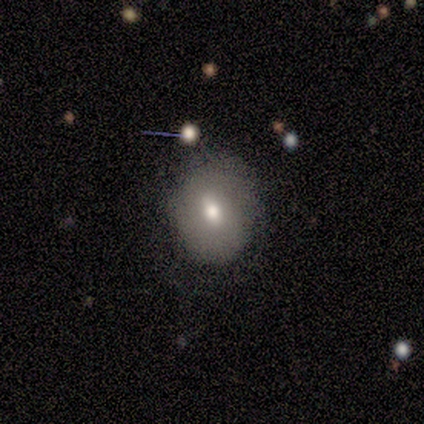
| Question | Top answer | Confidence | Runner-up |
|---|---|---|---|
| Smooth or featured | smooth | 100% | — |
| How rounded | in between | 60% | round (40%) |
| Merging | none | 80% | minor disturbance (20%) |